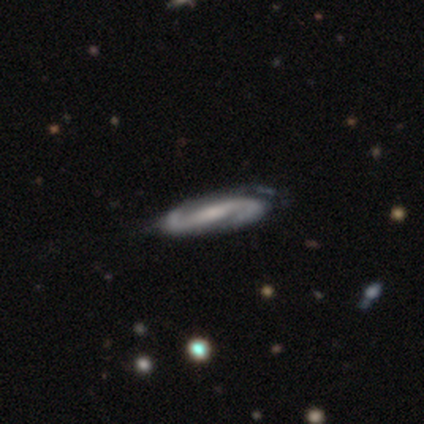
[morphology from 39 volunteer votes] Volunteers were most divided on "spiral winding": medium: 45%, loose: 33%, tight: 21%. Remaining: spiral arms — yes (100%); edge-on disk — no (94%); spiral arm count — 2 (94%); smooth or featured — featured or disk (90%); bar — strong (55%); bulge size — small (52%); merging — none (46%).